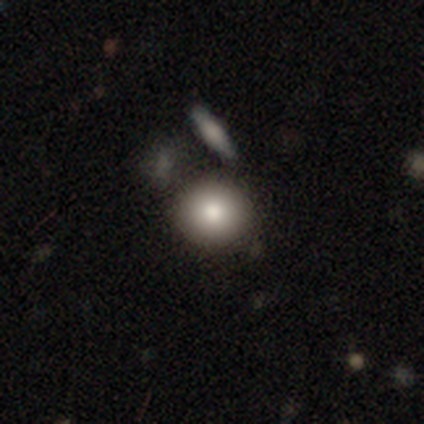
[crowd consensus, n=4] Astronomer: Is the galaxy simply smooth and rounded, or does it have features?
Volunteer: smooth — 75%.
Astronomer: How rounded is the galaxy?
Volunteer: round — 67%.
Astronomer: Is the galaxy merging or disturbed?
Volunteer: none — 100%.